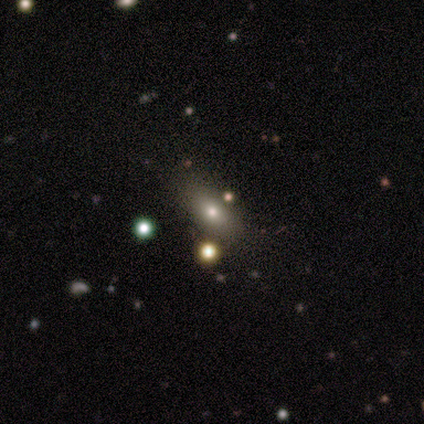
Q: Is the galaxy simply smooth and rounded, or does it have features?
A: smooth — 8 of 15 (53%).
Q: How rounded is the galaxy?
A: in between — 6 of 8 (75%).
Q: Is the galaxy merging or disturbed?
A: none — 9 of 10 (90%).